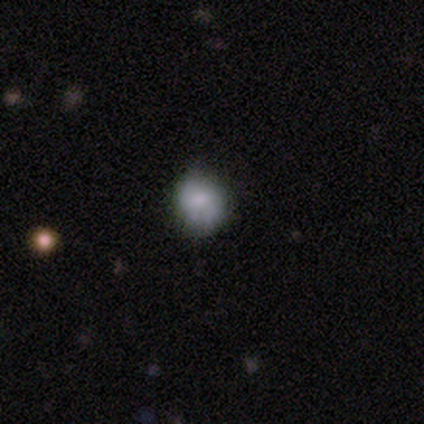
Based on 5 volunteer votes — Smooth or featured? 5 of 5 (100%) said smooth. How rounded? 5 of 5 (100%) said round. Merging? 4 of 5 (80%) said none.